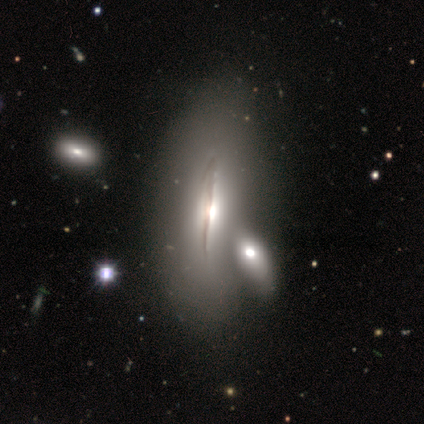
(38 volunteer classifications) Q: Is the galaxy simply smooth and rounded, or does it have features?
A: featured or disk — 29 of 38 (76%).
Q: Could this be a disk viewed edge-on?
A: yes — 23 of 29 (79%).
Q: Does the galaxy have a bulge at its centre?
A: rounded — 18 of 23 (78%).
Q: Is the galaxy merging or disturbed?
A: merger — 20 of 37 (54%).